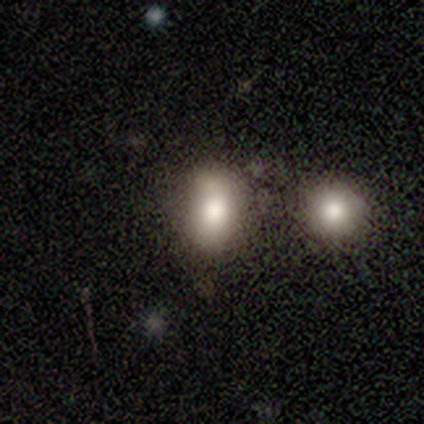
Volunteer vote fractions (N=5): A smooth galaxy with no disk features (60%) that is in between round and cigar-shaped (100%). Merging: none (75%).